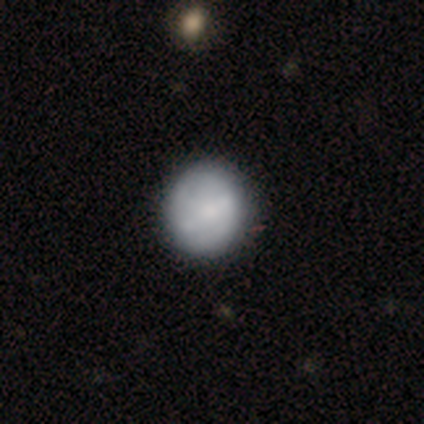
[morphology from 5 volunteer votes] This appears to be a smooth galaxy with no disk features (40%, tied with featured or disk) that is round (100%). Merging: none (75%).